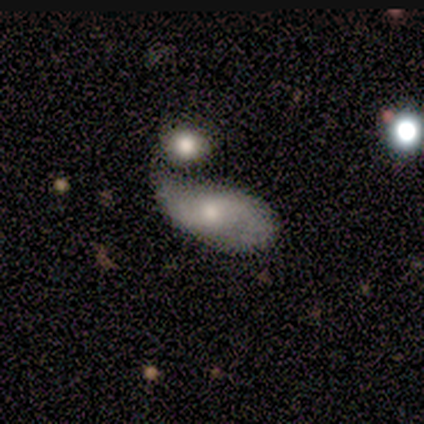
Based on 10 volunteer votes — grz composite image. It shows a featured or disk galaxy (60%) with no bar (83%), 2 (80%) loose (80%) spiral arms (83%) and a moderate central bulge (83%). Merging: none (50%).